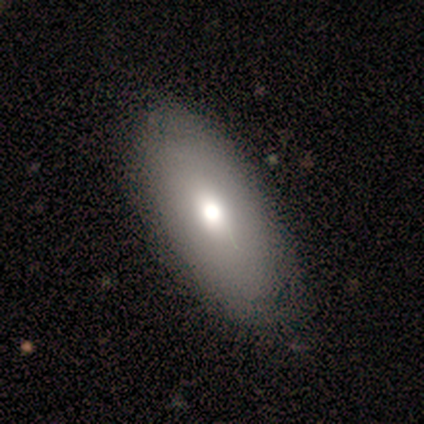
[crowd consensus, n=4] Q: Smooth or featured?
A: smooth (50%); tied with: featured or disk (50%)
Q: How rounded?
A: in between (100%)
Q: Merging?
A: none (100%)